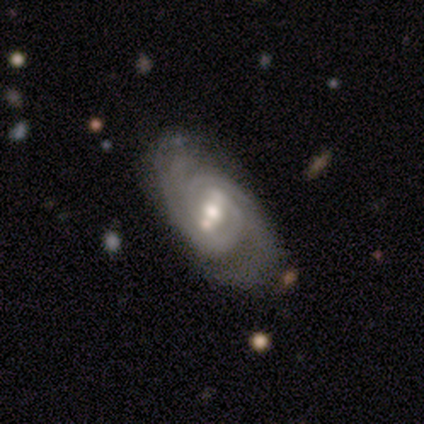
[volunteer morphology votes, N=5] smooth-or-featured: featured or disk: 100% | smooth: 0% | star or artifact: 0%
  disk-edge-on: no: 100% | yes: 0%
    bar: weak: 60% | strong: 20% | no: 20%
    has-spiral-arms: yes: 100% | no: 0%
      spiral-winding: tight: 60% | medium: 40% | loose: 0%
      spiral-arm-count: 2: 60% | 3: 20% | can't tell: 20% | 1: 0% | 4: 0% | more than 4: 0%
    bulge-size: moderate: 100% | dominant: 0% | large: 0% | small: 0% | none: 0%
  merging: none: 80% | minor disturbance: 20% | major disturbance: 0% | merger: 0%